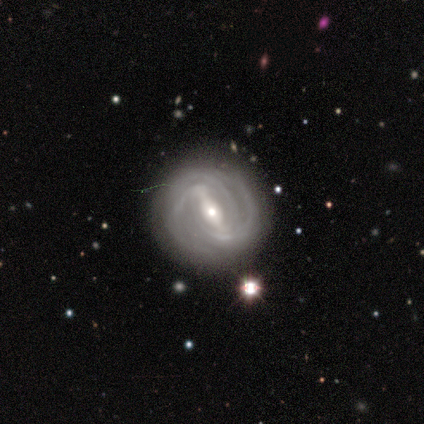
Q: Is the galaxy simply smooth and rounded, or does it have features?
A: featured or disk — 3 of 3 (100%).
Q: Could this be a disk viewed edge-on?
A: no — 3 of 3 (100%).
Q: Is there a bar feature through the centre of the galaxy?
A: strong — 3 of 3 (100%).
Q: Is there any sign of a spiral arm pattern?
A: yes — 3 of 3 (100%).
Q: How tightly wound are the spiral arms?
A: tight — 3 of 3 (100%).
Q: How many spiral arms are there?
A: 2 — 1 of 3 (33%, tied with 4 and can't tell).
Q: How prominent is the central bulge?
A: moderate — 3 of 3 (100%).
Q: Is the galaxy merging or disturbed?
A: none — 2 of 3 (67%).